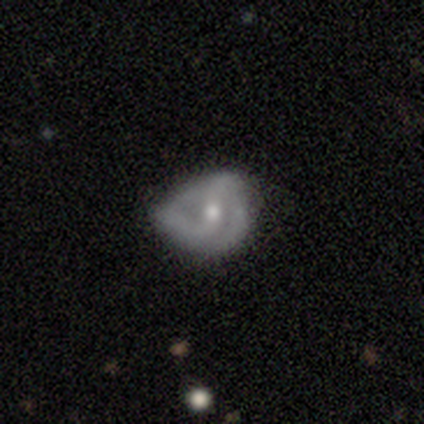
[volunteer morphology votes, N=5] Q: Smooth or featured?
A: featured or disk (60%); runner-up: smooth (40%)
Q: Edge-on disk?
A: no (67%); runner-up: yes (33%)
Q: Bar?
A: strong (50%); tied with: no (50%)
Q: Spiral arms?
A: yes (100%)
Q: Spiral winding?
A: tight (50%); tied with: loose (50%)
Q: Spiral arm count?
A: 2 (100%)
Q: Bulge size?
A: moderate (100%)
Q: Merging?
A: minor disturbance (80%); runner-up: none (20%)